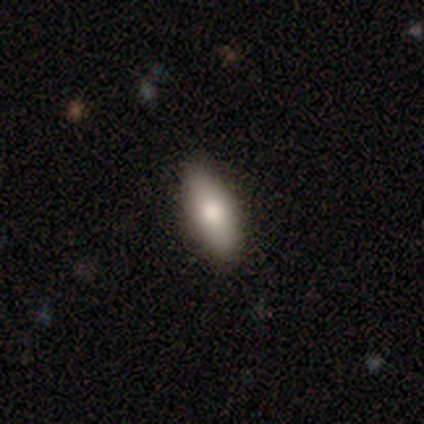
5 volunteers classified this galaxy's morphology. Overall: smooth (80%). How rounded: in between (100%). Merging: none (100%).